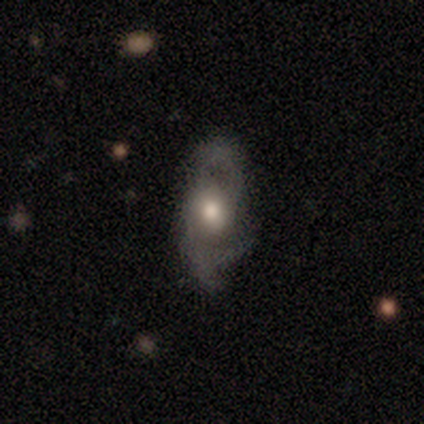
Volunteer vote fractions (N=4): A featured or disk galaxy (75%) with a weak bar (67%), 3 (67%) medium (67%) spiral arms (100%) and a moderate central bulge (67%). Merging: none (50%).